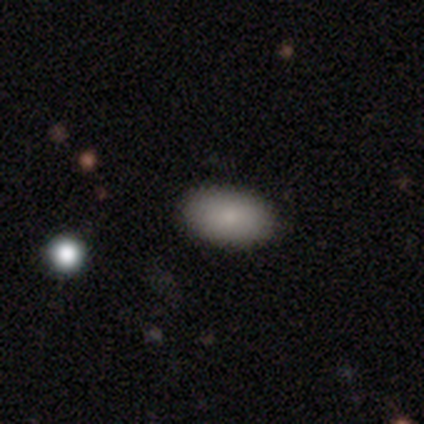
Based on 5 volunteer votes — smooth_or_featured: smooth (p=1.00)
how_rounded: in between (p=1.00)
merging: none (p=1.00)